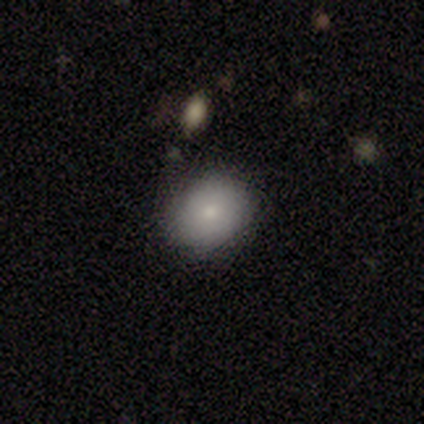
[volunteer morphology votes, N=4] A smooth galaxy with no disk features (100%) that is round (100%).

Vote fractions:
- Smooth or featured? smooth: 100% / featured or disk: 0% / star or artifact: 0%
- How rounded? round: 100% / in between: 0% / cigar-shaped: 0%
- Merging? none: 100% / minor disturbance: 0% / major disturbance: 0% / merger: 0%